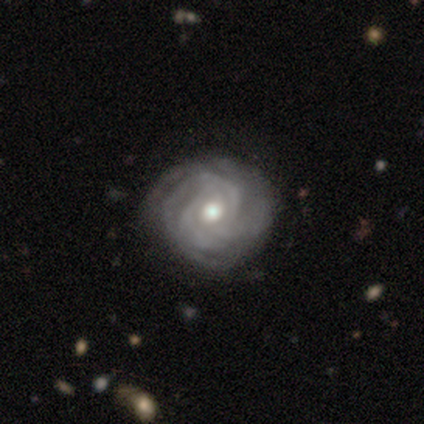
Smooth or featured? 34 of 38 (89%) said featured or disk. Edge-on disk? 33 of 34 (97%) said no. Bar? 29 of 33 (88%) said no. Spiral arms? 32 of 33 (97%) said yes. Spiral winding? 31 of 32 (97%) said tight. Spiral arm count? 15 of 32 (47%) said 3. Bulge size? 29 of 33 (88%) said moderate. Merging? 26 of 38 (68%) said none.